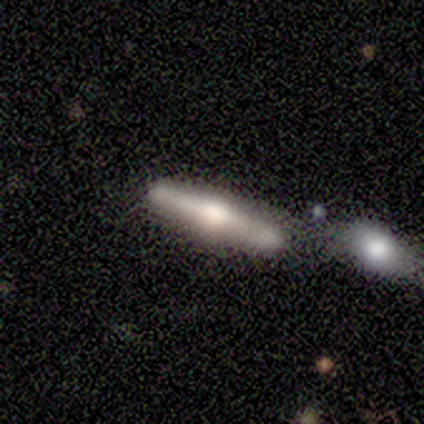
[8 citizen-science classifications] Smooth or featured?
  - featured or disk: 88% *
  - smooth: 12%
  - star or artifact: 0%
Edge-on disk?
  - yes: 86% *
  - no: 14%
Edge-on bulge?
  - rounded: 67% *
  - boxy: 33%
  - none: 0%
Merging?
  - none: 50% *
  - minor disturbance: 25%
  - merger: 25%
  - major disturbance: 0%